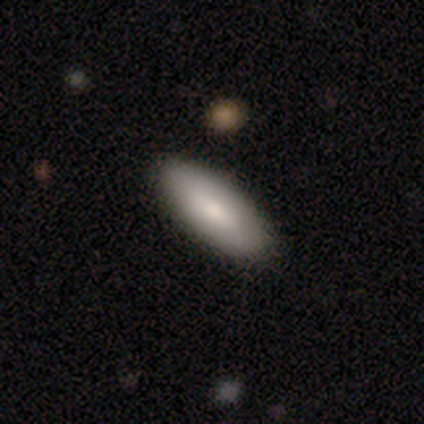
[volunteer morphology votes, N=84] Smooth or featured?
  - smooth: 80% *
  - featured or disk: 13%
  - star or artifact: 7%
How rounded?
  - in between: 76% *
  - cigar-shaped: 22%
  - round: 1%
Merging?
  - none: 86% *
  - minor disturbance: 10%
  - major disturbance: 3%
  - merger: 1%